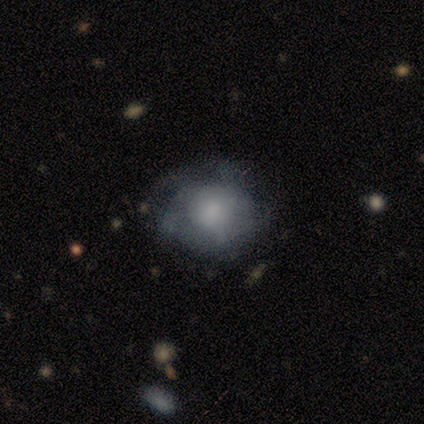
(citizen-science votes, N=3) Morphology: type=smooth (67%); roundness=round (50%, tied with cigar-shaped); merging=major disturbance (67%).